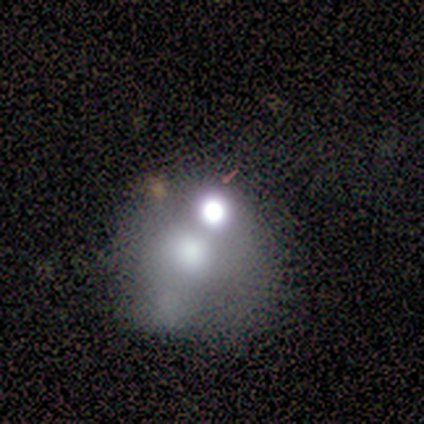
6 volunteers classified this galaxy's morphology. This appears to be a smooth galaxy with no disk features (67%) that is round (75%). Merging: merger (60%).